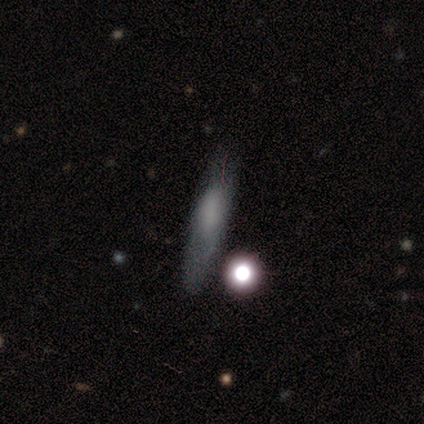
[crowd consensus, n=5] This is likely a featured or disk galaxy (60%). It is clearly viewed edge-on (100%). Edge-on bulge: likely rounded (67%). Merging: likely none (60%).